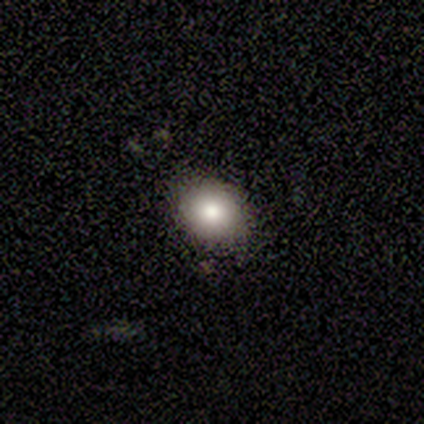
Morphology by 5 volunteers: This is clearly a smooth galaxy (80%). How rounded: possibly round (50%, tied with in between). Merging: clearly none (100%).